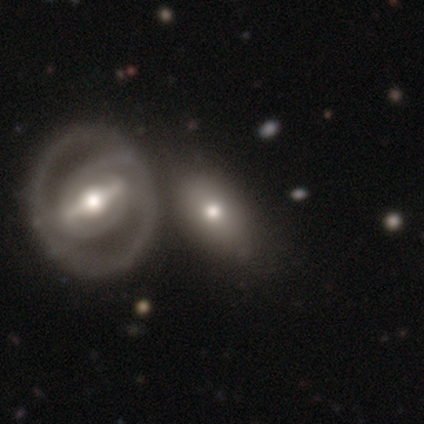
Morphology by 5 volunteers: Smooth or featured? 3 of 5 (60%) said smooth. How rounded? 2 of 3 (67%) said in between. Merging? 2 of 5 (40%, tied with merger) said minor disturbance.